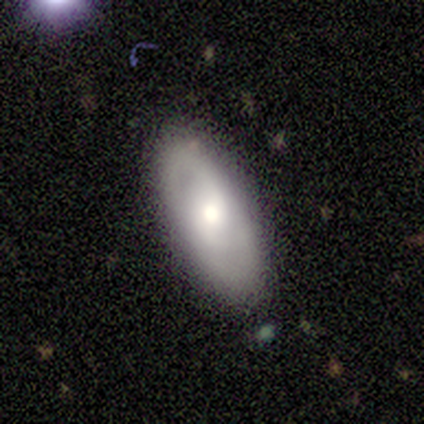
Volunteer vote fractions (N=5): Smooth or featured? smooth (60%)
How rounded? in between (100%)
Merging? none (80%)